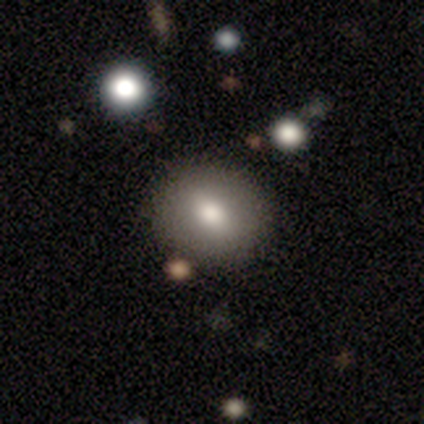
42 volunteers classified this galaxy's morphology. Smooth or featured?
  - smooth: 69% *
  - featured or disk: 17%
  - star or artifact: 14%
How rounded?
  - round: 52% *
  - in between: 45%
  - cigar-shaped: 3%
Merging?
  - none: 83% *
  - minor disturbance: 14%
  - major disturbance: 3%
  - merger: 0%